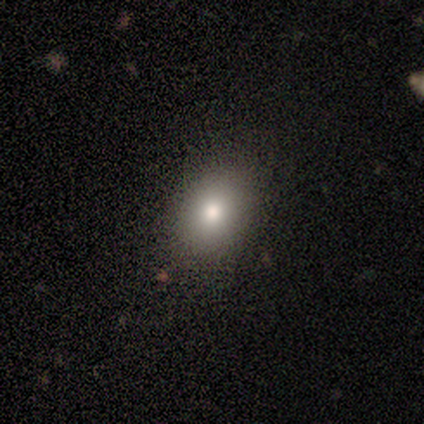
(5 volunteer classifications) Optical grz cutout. It shows a smooth galaxy with no disk features (60%) that is in between round and cigar-shaped (67%). Merging: none (100%).